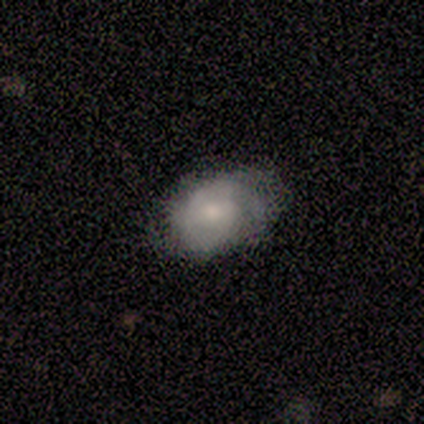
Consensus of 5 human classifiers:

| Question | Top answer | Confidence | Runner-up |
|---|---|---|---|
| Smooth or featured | smooth | 40% | tied: featured or disk (40%) |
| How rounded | in between | 100% | — |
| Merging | none | 100% | — |